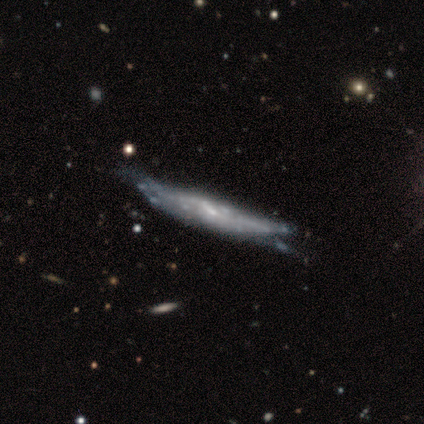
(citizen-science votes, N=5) smooth_or_featured: smooth (p=0.40) [tied with: featured or disk p=0.40]
how_rounded: cigar-shaped (p=1.00)
merging: none (p=0.50) [tied with: minor disturbance p=0.50]